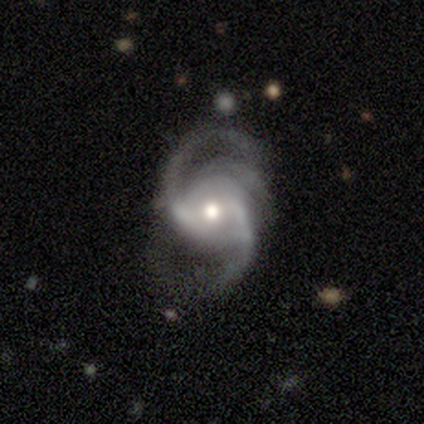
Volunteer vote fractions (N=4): smooth-or-featured: featured or disk: 100% | smooth: 0% | star or artifact: 0%
  disk-edge-on: no: 100% | yes: 0%
    bar: no: 50% | strong: 25% | weak: 25%
    has-spiral-arms: yes: 100% | no: 0%
      spiral-winding: medium: 75% | loose: 25% | tight: 0%
      spiral-arm-count: 2: 50% (tied) | 3: 50% (tied) | 1: 0% | 4: 0% | more than 4: 0% | can't tell: 0%
    bulge-size: moderate: 100% | dominant: 0% | large: 0% | small: 0% | none: 0%
  merging: none: 75% | major disturbance: 25% | minor disturbance: 0% | merger: 0%